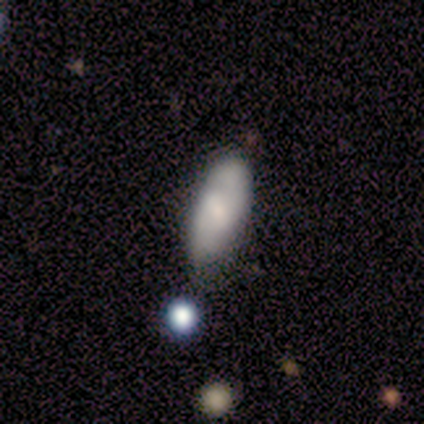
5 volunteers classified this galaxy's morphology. Smooth or featured? 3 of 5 (60%) said smooth. How rounded? 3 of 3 (100%) said in between. Merging? 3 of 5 (60%) said none.